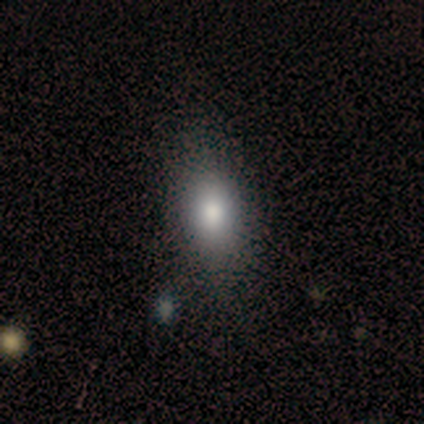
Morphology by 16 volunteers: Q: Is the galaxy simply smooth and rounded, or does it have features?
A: smooth — 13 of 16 (81%).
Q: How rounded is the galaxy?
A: in between — 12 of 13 (92%).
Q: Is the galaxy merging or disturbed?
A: none — 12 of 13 (92%).